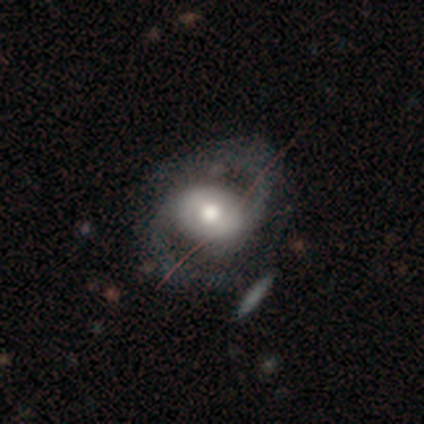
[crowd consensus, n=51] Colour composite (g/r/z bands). It shows a featured or disk galaxy (76%) with no bar (46%), 2 (97%) medium (52%) spiral arms (84%) and a moderate central bulge (62%). Merging: none (65%).